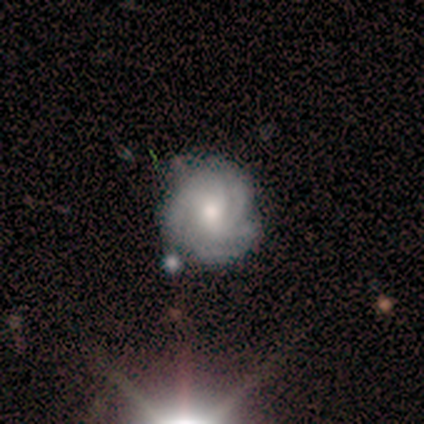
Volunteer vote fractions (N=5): Smooth or featured?
  - featured or disk: 100% *
  - smooth: 0%
  - star or artifact: 0%
Edge-on disk?
  - no: 100% *
  - yes: 0%
Bar?
  - no: 100% *
  - strong: 0%
  - weak: 0%
Spiral arms?
  - yes: 100% *
  - no: 0%
Spiral winding?
  - tight: 80% *
  - medium: 20%
  - loose: 0%
Spiral arm count?
  - 3: 80% *
  - 4: 20%
  - 1: 0%
  - 2: 0%
  - more than 4: 0%
  - can't tell: 0%
Bulge size?
  - moderate: 60% *
  - large: 20%
  - small: 20%
  - dominant: 0%
  - none: 0%
Merging?
  - none: 60% *
  - minor disturbance: 40%
  - major disturbance: 0%
  - merger: 0%